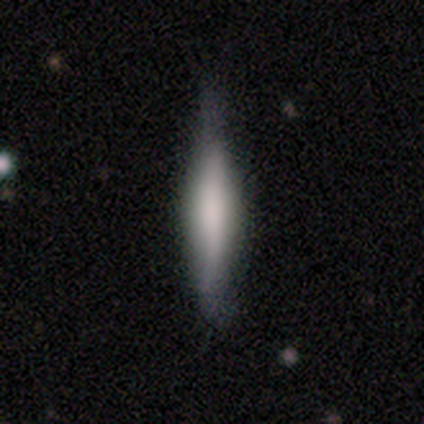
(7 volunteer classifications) featured or disk 57%, smooth 43%, star or artifact 0%. Down the decision tree: edge-on disk — yes (100%); edge-on bulge — rounded (75%); merging — none (71%).